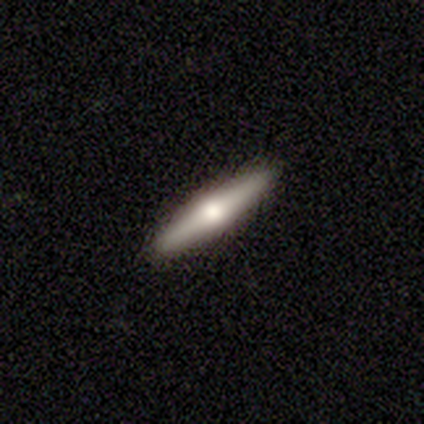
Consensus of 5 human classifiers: smooth-or-featured: featured or disk: 60% | smooth: 40% | star or artifact: 0%
  disk-edge-on: yes: 100% | no: 0%
    edge-on-bulge: rounded: 100% | boxy: 0% | none: 0%
  merging: none: 80% | minor disturbance: 20% | major disturbance: 0% | merger: 0%